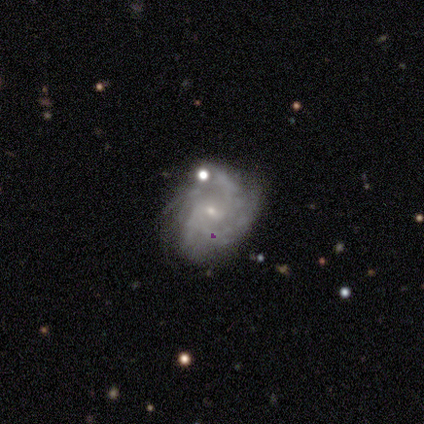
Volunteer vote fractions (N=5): Volunteers were most divided on "merging" (2-way tie): none: 40%, minor disturbance: 40%, major disturbance: 20%, merger: 0%. More confident: edge-on disk — no (100%); spiral winding — tight (100%); bulge size — small (100%); smooth or featured — featured or disk (80%); bar — no (75%); spiral arms — yes (75%); spiral arm count — can't tell (67%).